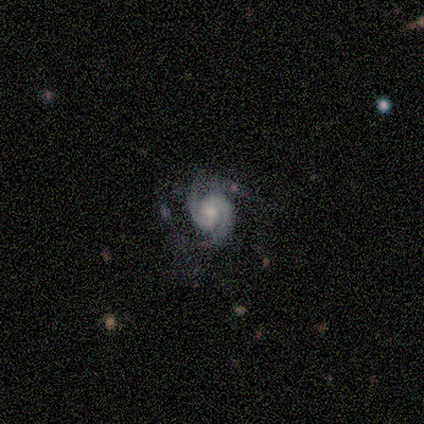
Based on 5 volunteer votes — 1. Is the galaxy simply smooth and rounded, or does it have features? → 100% featured or disk, 0% smooth, 0% star or artifact.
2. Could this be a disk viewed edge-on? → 100% no, 0% yes.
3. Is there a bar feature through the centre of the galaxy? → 100% no, 0% strong, 0% weak.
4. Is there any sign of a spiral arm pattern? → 100% yes, 0% no.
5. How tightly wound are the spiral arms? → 60% tight, 40% medium, 0% loose.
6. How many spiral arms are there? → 100% 2, 0% 1, 0% 3, 0% 4, 0% more than 4, 0% can't tell.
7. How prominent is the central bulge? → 60% small, 40% moderate, 0% dominant, 0% large, 0% none.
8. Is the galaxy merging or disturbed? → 80% none, 20% major disturbance, 0% minor disturbance, 0% merger.